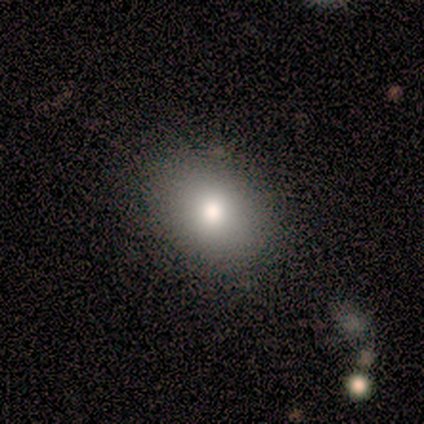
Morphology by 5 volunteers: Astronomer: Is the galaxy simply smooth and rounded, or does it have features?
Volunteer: smooth — 100%.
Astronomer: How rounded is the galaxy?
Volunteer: in between — 80%.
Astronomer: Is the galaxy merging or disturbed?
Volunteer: none — 60% (runner-up: minor disturbance, 40%).